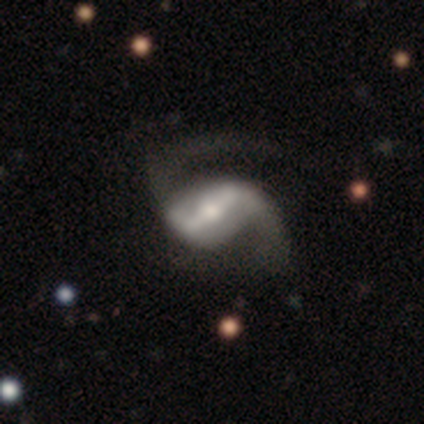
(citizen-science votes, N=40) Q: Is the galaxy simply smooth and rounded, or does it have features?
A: featured or disk — 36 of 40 (90%).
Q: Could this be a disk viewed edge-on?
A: no — 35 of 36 (97%).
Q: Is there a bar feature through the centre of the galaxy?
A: strong — 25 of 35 (71%).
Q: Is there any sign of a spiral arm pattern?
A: yes — 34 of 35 (97%).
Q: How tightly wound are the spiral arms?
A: loose — 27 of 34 (79%).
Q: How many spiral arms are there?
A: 2 — 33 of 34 (97%).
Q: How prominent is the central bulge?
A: moderate — 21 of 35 (60%).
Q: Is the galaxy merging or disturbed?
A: none — 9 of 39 (23%).